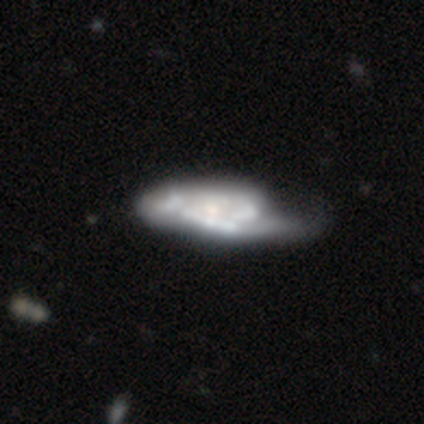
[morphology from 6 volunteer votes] Smooth or featured? 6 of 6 (100%) said featured or disk. Edge-on disk? 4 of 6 (67%) said no. Bar? 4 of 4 (100%) said no. Spiral arms? 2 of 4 (50%, tied with no) said yes. Spiral winding? 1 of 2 (50%, tied with medium) said tight. Spiral arm count? 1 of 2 (50%, tied with 4) said 2. Bulge size? 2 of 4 (50%) said moderate. Merging? 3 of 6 (50%) said major disturbance.